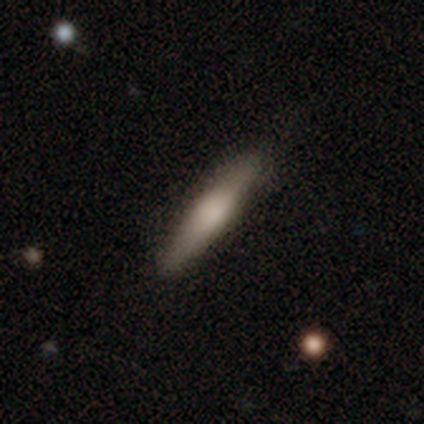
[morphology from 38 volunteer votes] Smooth or featured? smooth (63%)
How rounded? cigar-shaped (100%)
Merging? none (95%)